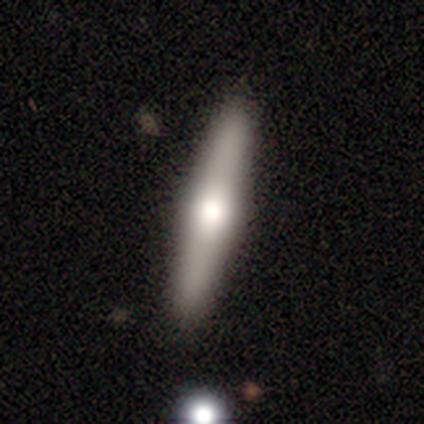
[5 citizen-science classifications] This appears to be a featured or disk galaxy (80%) viewed edge-on (100%) with a rounded central bulge (75%). Merging: none (100%).